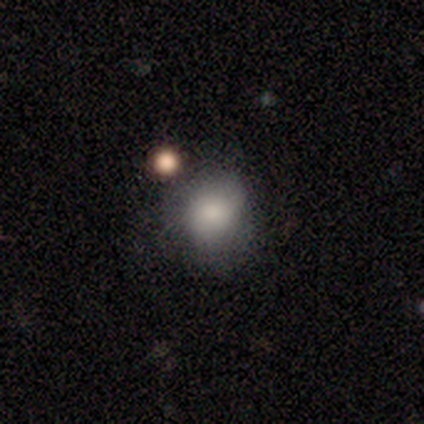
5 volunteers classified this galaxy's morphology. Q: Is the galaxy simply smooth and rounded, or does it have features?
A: smooth — 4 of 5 (80%).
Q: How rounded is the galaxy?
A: round — 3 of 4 (75%).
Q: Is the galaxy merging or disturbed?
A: none — 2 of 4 (50%, tied with minor disturbance).